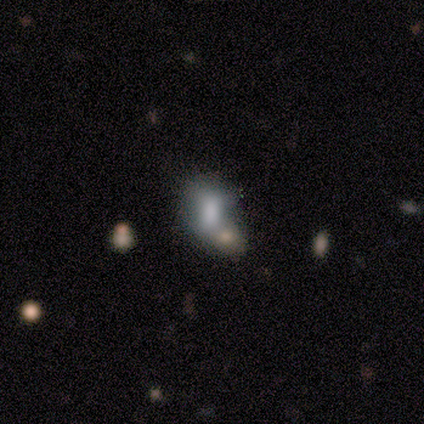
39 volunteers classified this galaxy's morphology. smooth 46%, featured or disk 41%, star or artifact 13%. Down the decision tree: how rounded — in between (89%); merging — none (44%).